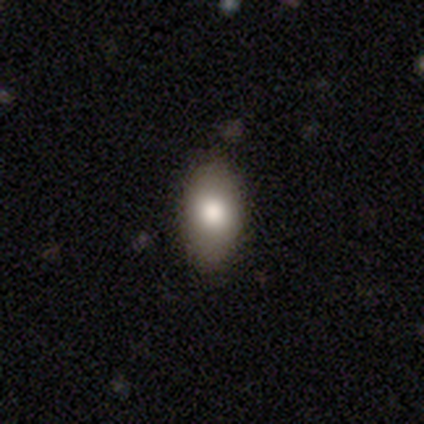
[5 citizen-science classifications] Smooth or featured? smooth (100%)
How rounded? in between (80%)
Merging? none (80%)